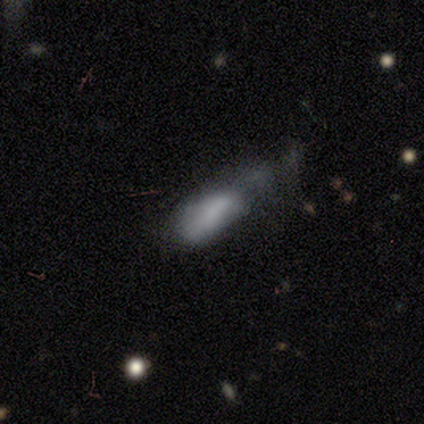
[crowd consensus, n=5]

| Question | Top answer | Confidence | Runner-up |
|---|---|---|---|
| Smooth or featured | smooth | 80% | featured or disk (20%) |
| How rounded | in between | 75% | cigar-shaped (25%) |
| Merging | major disturbance | 80% | merger (20%) |